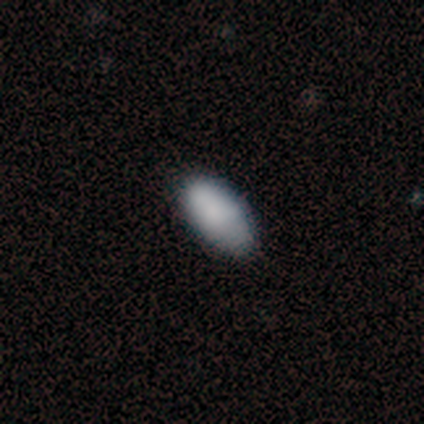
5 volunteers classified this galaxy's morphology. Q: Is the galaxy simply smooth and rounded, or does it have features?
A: smooth — 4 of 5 (80%).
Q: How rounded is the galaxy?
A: in between — 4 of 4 (100%).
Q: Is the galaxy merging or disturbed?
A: none — 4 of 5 (80%).